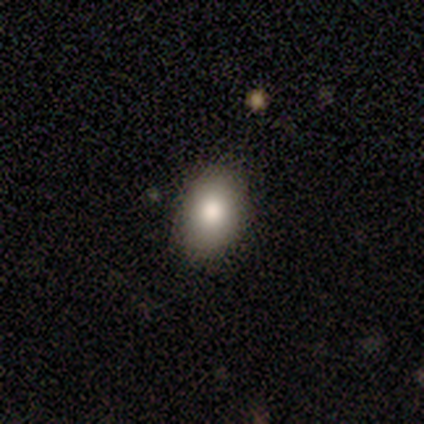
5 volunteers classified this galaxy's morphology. This appears to be a smooth galaxy with no disk features (100%) that is in between round and cigar-shaped (100%). Merging: none (80%).